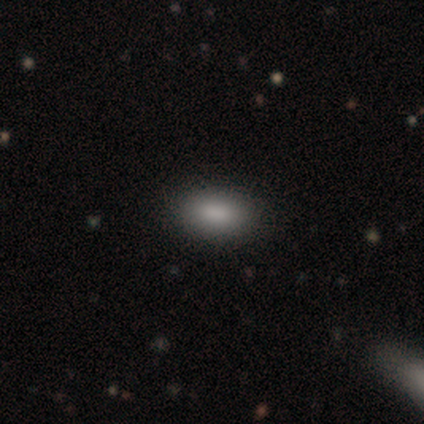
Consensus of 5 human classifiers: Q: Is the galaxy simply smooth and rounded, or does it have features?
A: smooth — 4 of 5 (80%).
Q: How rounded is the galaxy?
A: in between — 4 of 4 (100%).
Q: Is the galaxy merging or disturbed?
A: none — 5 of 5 (100%).